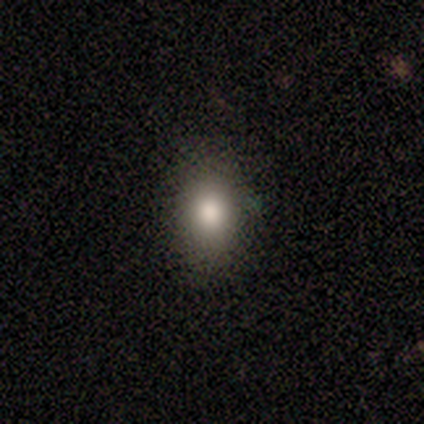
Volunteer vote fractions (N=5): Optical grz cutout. It shows a smooth galaxy with no disk features (60%) that is in between round and cigar-shaped (67%). Merging: none (100%).